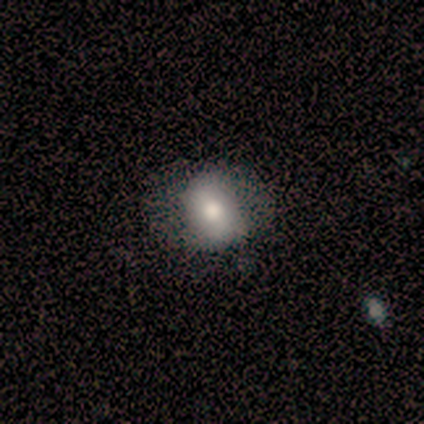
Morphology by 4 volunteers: Smooth or featured?
  - smooth: 100% *
  - featured or disk: 0%
  - star or artifact: 0%
How rounded?
  - round: 100% *
  - in between: 0%
  - cigar-shaped: 0%
Merging?
  - none: 75% *
  - merger: 25%
  - minor disturbance: 0%
  - major disturbance: 0%